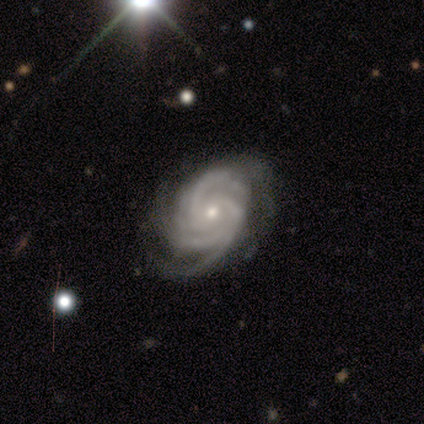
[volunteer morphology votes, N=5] smooth_or_featured: featured or disk (p=1.00)
disk_edge_on: no (p=1.00)
bar: no (p=0.80) [alt: strong p=0.20]
has_spiral_arms: yes (p=1.00)
spiral_winding: tight (p=1.00)
spiral_arm_count: 3 (p=0.80) [alt: 4 p=0.20]
bulge_size: small (p=1.00)
merging: none (p=0.80) [alt: major disturbance p=0.20]